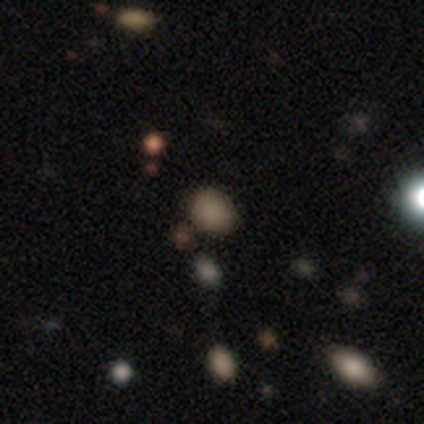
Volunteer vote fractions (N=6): Volunteers were most divided on "how rounded": in between: 60%, round: 20%, cigar-shaped: 20%. More confident: smooth or featured — smooth (83%); merging — none (80%).